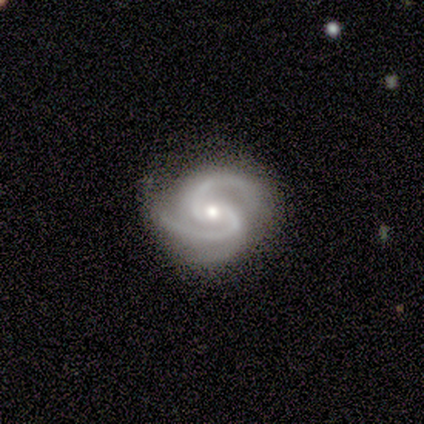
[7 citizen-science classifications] Volunteers were most divided on "bar": no: 57%, weak: 29%, strong: 14%. More confident: smooth or featured — featured or disk (100%); edge-on disk — no (100%); spiral arms — yes (100%); merging — none (100%); spiral arm count — 2 (86%); spiral winding — tight (57%); bulge size — moderate (57%).